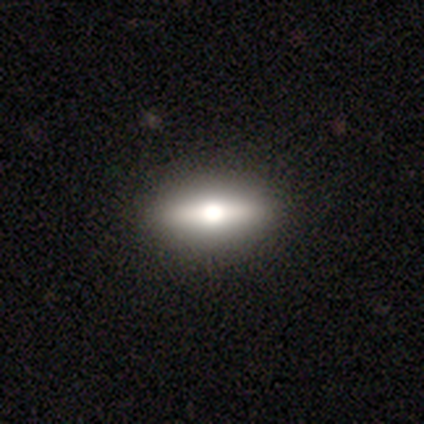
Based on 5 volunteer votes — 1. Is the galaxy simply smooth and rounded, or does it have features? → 40% smooth (tied), 40% star or artifact (tied), 20% featured or disk.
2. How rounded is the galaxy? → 100% cigar-shaped, 0% round, 0% in between.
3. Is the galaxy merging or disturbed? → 100% none, 0% minor disturbance, 0% major disturbance, 0% merger.